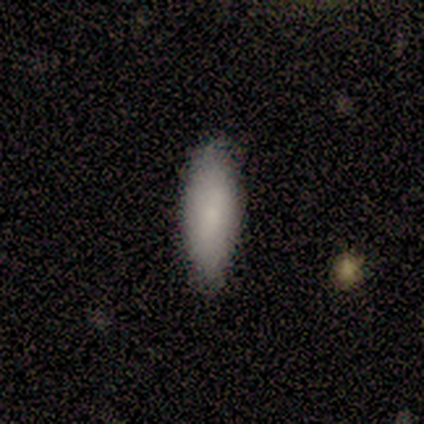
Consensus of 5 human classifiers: smooth-or-featured: smooth: 80% | star or artifact: 20% | featured or disk: 0%
  how-rounded: in between: 100% | round: 0% | cigar-shaped: 0%
  merging: none: 50% (tied) | minor disturbance: 50% (tied) | major disturbance: 0% | merger: 0%